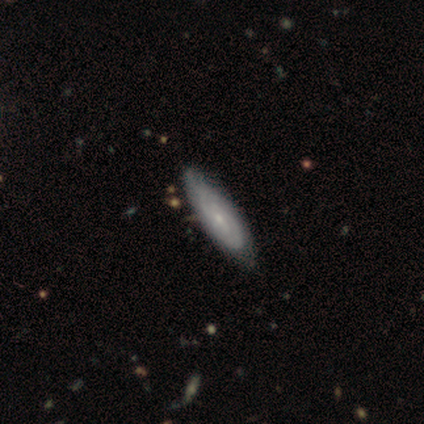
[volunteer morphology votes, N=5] Smooth or featured? 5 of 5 (100%) said featured or disk. Edge-on disk? 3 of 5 (60%) said no. Bar? 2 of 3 (67%) said no. Spiral arms? 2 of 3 (67%) said yes. Spiral winding? 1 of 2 (50%, tied with medium) said tight. Spiral arm count? 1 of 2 (50%, tied with can't tell) said 2. Bulge size? 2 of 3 (67%) said small. Merging? 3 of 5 (60%) said none.